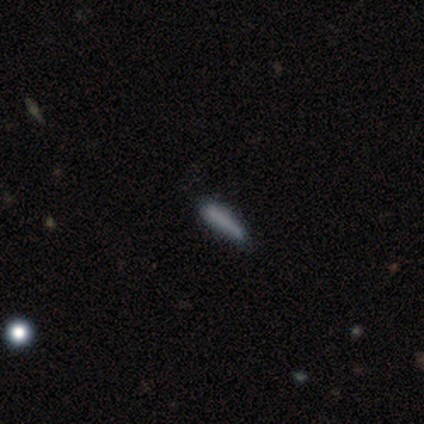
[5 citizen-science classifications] Volunteers were most divided on "smooth or featured": smooth: 80%, featured or disk: 20%, star or artifact: 0%. More confident: how rounded — cigar-shaped (100%); merging — none (100%).